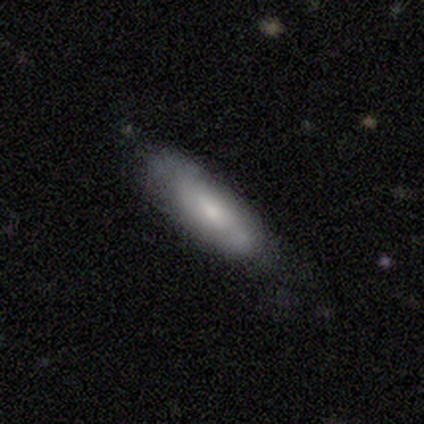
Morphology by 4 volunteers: Smooth or featured? smooth (75%)
How rounded? cigar-shaped (67%)
Merging? none (75%)